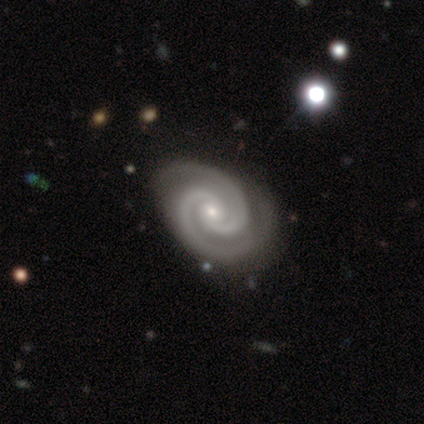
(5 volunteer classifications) Volunteers were most divided on "bar": no: 60%, weak: 40%, strong: 0%. More confident: smooth or featured — featured or disk (100%); edge-on disk — no (100%); spiral arms — yes (100%); spiral arm count — 2 (100%); merging — none (80%); spiral winding — tight (60%); bulge size — small (60%).